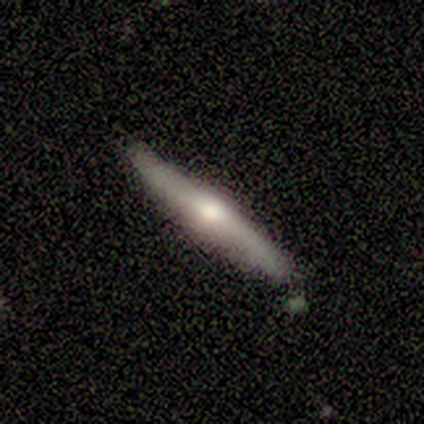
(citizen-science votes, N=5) smooth-or-featured: featured or disk: 80% | smooth: 20% | star or artifact: 0%
  disk-edge-on: yes: 100% | no: 0%
    edge-on-bulge: rounded: 100% | boxy: 0% | none: 0%
  merging: none: 60% | minor disturbance: 40% | major disturbance: 0% | merger: 0%